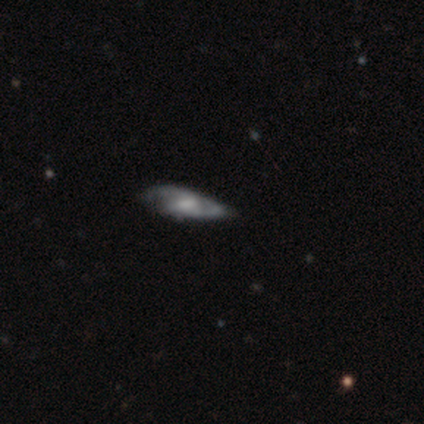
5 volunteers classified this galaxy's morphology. Smooth or featured? featured or disk (60%)
Edge-on disk? yes (67%)
Edge-on bulge? rounded (100%)
Merging? none (60%)